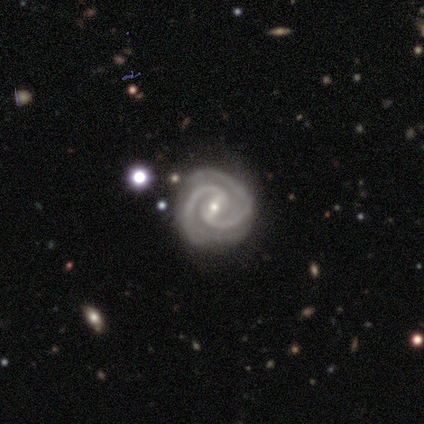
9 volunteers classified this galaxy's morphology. A featured or disk galaxy (100%) with a strong bar (50%), 2 (100%) tight (75%) spiral arms (100%) and a small central bulge (62%). Merging: none (100%).